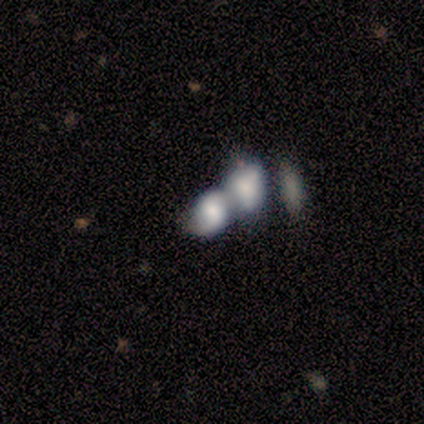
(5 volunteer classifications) smooth_or_featured: smooth (p=0.40) [tied with: featured or disk p=0.40]
how_rounded: in between (p=1.00)
merging: merger (p=0.75) [alt: none p=0.25]